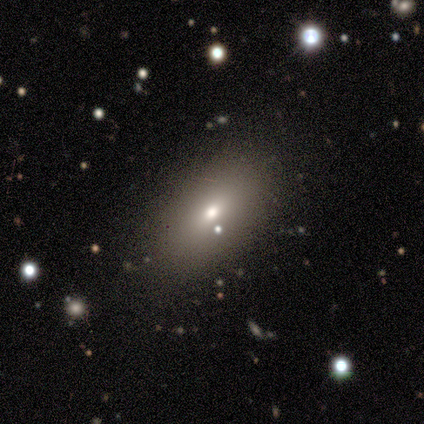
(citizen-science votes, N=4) Overall: smooth (100%). How rounded: in between (75%). Merging: none (100%).